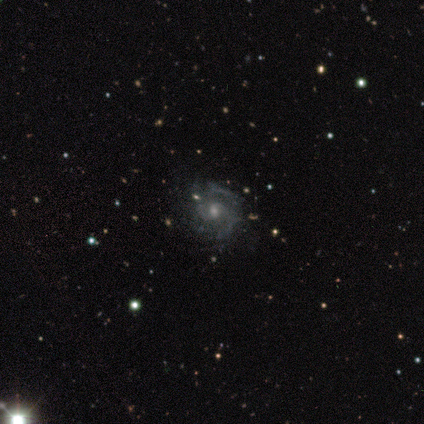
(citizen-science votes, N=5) smooth-or-featured: featured or disk: 100% | smooth: 0% | star or artifact: 0%
  disk-edge-on: no: 80% | yes: 20%
    bar: weak: 50% (tied) | no: 50% (tied) | strong: 0%
    has-spiral-arms: yes: 100% | no: 0%
      spiral-winding: tight: 50% (tied) | medium: 50% (tied) | loose: 0%
      spiral-arm-count: 2: 75% | 4: 25% | 1: 0% | 3: 0% | more than 4: 0% | can't tell: 0%
    bulge-size: moderate: 50% (tied) | small: 50% (tied) | dominant: 0% | large: 0% | none: 0%
  merging: none: 60% | minor disturbance: 40% | major disturbance: 0% | merger: 0%